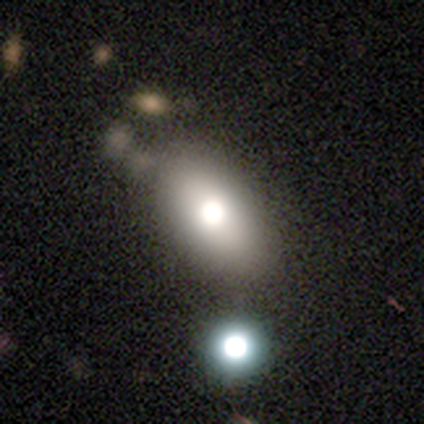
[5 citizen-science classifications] Q: Smooth or featured?
A: smooth (80%); runner-up: star or artifact (20%)
Q: How rounded?
A: in between (75%); runner-up: round (25%)
Q: Merging?
A: none (100%)